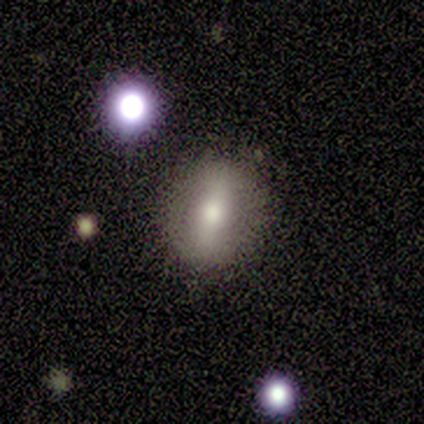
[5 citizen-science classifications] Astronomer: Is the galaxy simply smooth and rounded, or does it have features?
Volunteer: smooth — 40%, tied with featured or disk at 40%.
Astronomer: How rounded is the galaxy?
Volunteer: round — 100%.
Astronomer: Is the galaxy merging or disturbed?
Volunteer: none — 100%.